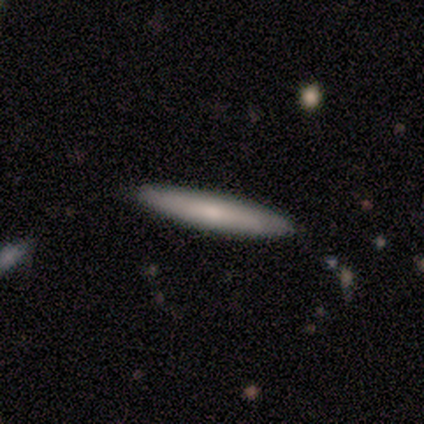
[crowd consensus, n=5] smooth_or_featured: smooth (p=0.60) [alt: featured or disk p=0.40]
how_rounded: cigar-shaped (p=1.00)
merging: none (p=1.00)